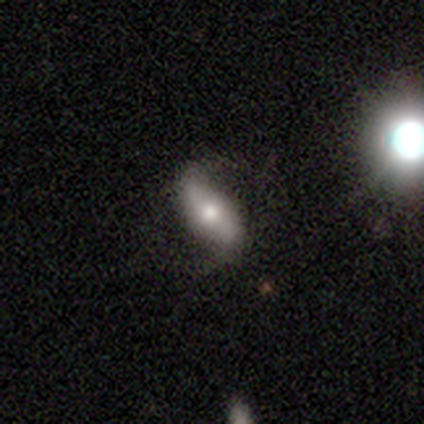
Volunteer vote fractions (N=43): Smooth or featured? 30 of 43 (70%) said featured or disk. Edge-on disk? 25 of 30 (83%) said no. Bar? 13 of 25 (52%) said no. Spiral arms? 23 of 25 (92%) said yes. Spiral winding? 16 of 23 (70%) said loose. Spiral arm count? 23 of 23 (100%) said 2. Bulge size? 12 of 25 (48%) said moderate. Merging? 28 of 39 (72%) said none.